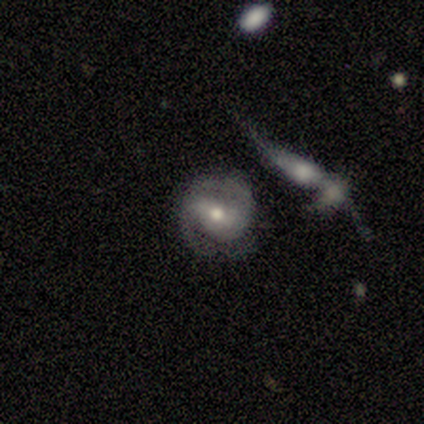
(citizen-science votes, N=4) Volunteers were most divided on "bar": weak: 67%, strong: 33%, no: 0%. More confident: smooth or featured — featured or disk (100%); spiral arms — yes (100%); spiral arm count — 2 (100%); edge-on disk — no (75%); merging — none (75%); spiral winding — loose (67%); bulge size — moderate (67%).